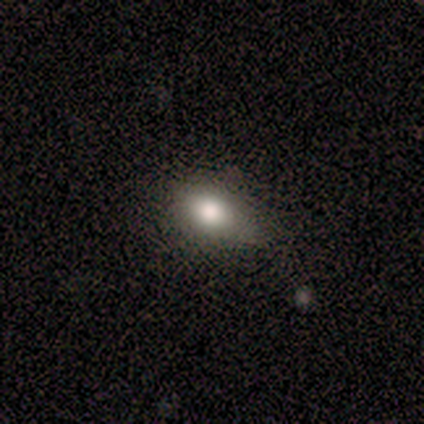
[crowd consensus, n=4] Smooth or featured: featured or disk — 75% (smooth — 25%)
Edge-on disk: no — 67% (yes — 33%)
Bar: strong — 50% (tied with no — 50%)
Spiral arms: no — 100%
Bulge size: dominant — 50% (tied with small — 50%)
Merging: none — 50% (tied with minor disturbance — 50%)